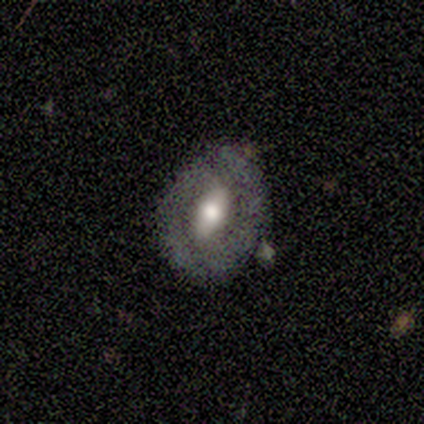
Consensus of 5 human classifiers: Smooth or featured? 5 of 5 (100%) said featured or disk. Edge-on disk? 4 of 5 (80%) said no. Bar? 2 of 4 (50%) said no. Spiral arms? 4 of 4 (100%) said no. Bulge size? 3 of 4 (75%) said moderate. Merging? 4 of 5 (80%) said none.